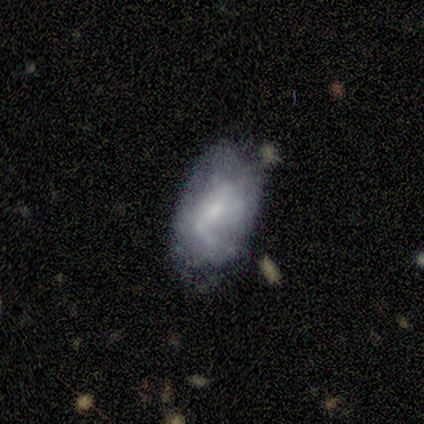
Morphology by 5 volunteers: A smooth galaxy with no disk features (80%) that is in between round and cigar-shaped (75%).

Vote fractions:
- Smooth or featured? smooth: 80% / star or artifact: 20% / featured or disk: 0%
- How rounded? in between: 75% / cigar-shaped: 25% / round: 0%
- Merging? none: 50% (tied) / minor disturbance: 50% (tied) / major disturbance: 0% / merger: 0%